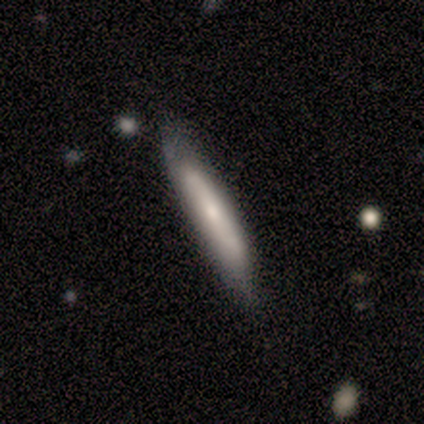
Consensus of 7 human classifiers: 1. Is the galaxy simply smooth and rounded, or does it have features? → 86% smooth, 14% star or artifact, 0% featured or disk.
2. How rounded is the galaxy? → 100% cigar-shaped, 0% round, 0% in between.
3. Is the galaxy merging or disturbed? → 100% none, 0% minor disturbance, 0% major disturbance, 0% merger.